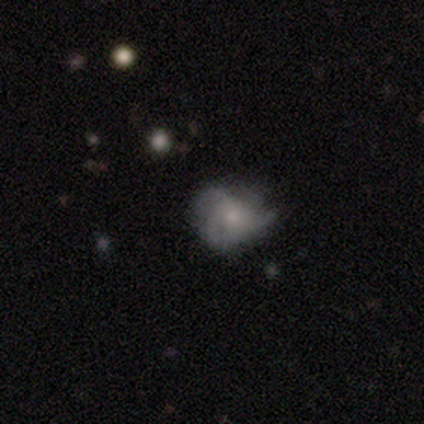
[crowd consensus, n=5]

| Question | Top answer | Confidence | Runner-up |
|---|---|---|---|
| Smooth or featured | featured or disk | 80% | star or artifact (20%) |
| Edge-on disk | no | 100% | — |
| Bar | no | 75% | weak (25%) |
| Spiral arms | yes | 75% | no (25%) |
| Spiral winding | tight | 67% | medium (33%) |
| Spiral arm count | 2 | 33% | tied: 3 (33%), 4 (33%) |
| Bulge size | moderate | 50% | tied: small (50%) |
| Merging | minor disturbance | 50% | none (25%) |